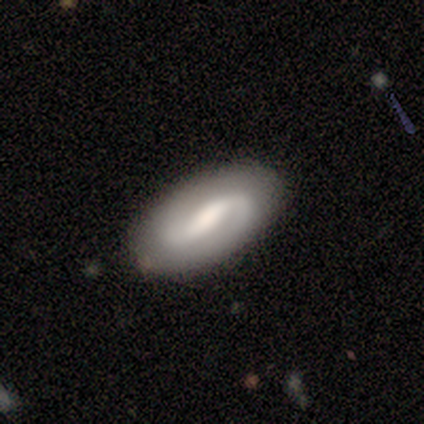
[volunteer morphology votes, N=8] smooth-or-featured: featured or disk: 75% | smooth: 12% | star or artifact: 12%
  disk-edge-on: no: 100% | yes: 0%
    bar: weak: 67% | strong: 33% | no: 0%
    has-spiral-arms: yes: 100% | no: 0%
      spiral-winding: medium: 67% | loose: 33% | tight: 0%
      spiral-arm-count: 2: 83% | 1: 17% | 3: 0% | 4: 0% | more than 4: 0% | can't tell: 0%
    bulge-size: moderate: 50% | none: 33% | large: 17% | dominant: 0% | small: 0%
  merging: none: 100% | minor disturbance: 0% | major disturbance: 0% | merger: 0%